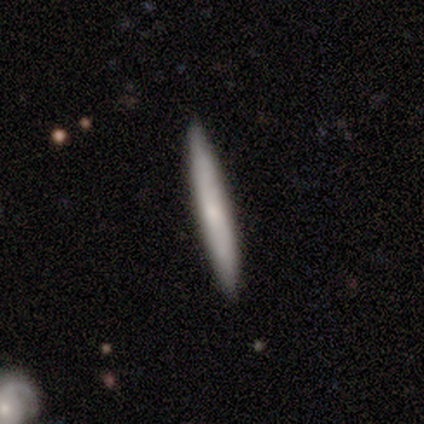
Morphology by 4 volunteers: smooth 50% (tied), featured or disk 50% (tied), star or artifact 0%. Down the decision tree: how rounded — cigar-shaped (100%); merging — none (50%).